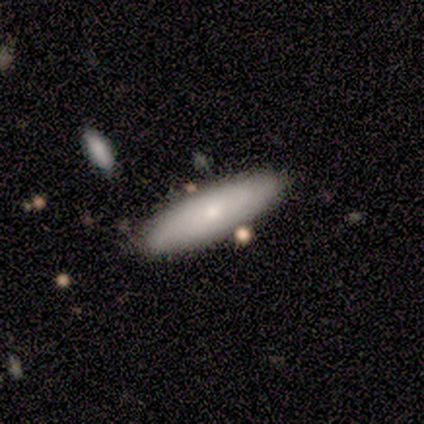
A smooth galaxy with no disk features (64%) that is cigar-shaped (57%). Merging: none (82%).